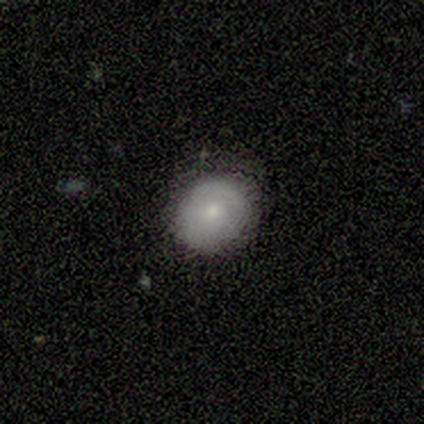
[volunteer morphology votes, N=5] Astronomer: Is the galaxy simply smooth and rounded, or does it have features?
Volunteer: smooth — 80%.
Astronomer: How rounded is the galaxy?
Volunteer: round — 50%, tied with in between at 50%.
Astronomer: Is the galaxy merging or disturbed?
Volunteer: none — 60%.